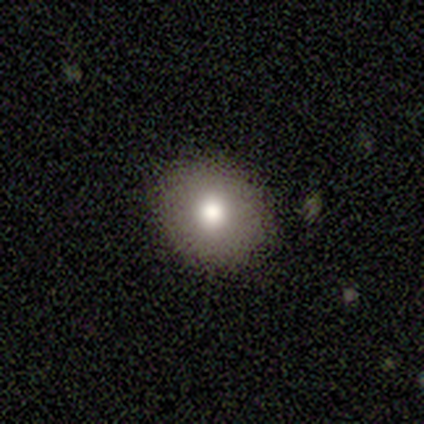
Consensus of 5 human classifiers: Smooth or featured: featured or disk — 60% (smooth — 40%)
Edge-on disk: no — 100%
Bar: no — 100%
Spiral arms: no — 100%
Bulge size: moderate — 100%
Merging: none — 100%